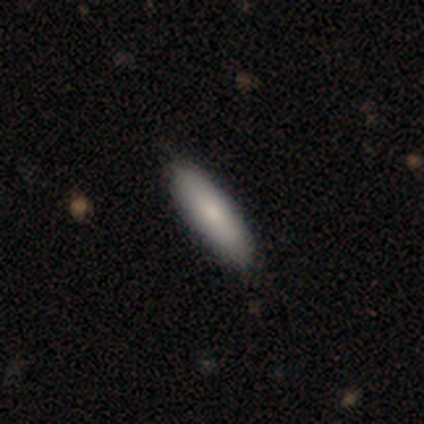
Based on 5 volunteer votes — This is clearly a smooth galaxy (100%). How rounded: likely cigar-shaped (60%). Merging: clearly none (100%).